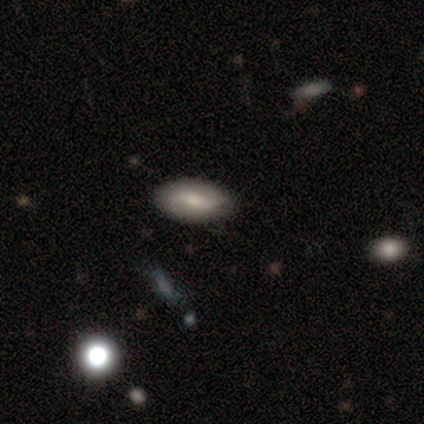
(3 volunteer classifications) smooth 33% (tied), featured or disk 33% (tied), star or artifact 33% (tied). Down the decision tree: how rounded — round (100%); merging — none (50%, tied with minor disturbance).